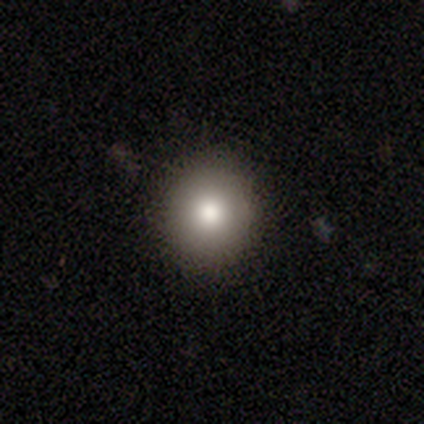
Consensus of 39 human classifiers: Smooth or featured? 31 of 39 (79%) said smooth. How rounded? 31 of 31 (100%) said round. Merging? 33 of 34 (97%) said none.